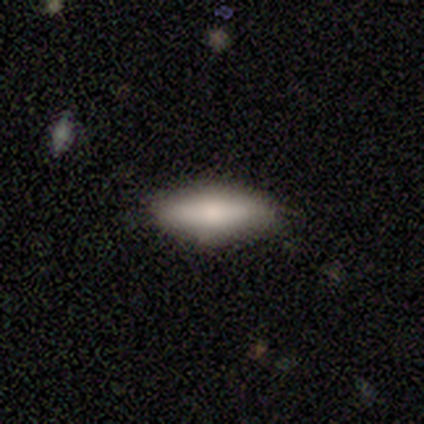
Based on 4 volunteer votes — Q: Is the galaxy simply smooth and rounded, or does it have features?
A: smooth — 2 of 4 (50%, tied with featured or disk).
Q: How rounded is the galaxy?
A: in between — 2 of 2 (100%).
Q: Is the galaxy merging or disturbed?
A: none — 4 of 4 (100%).